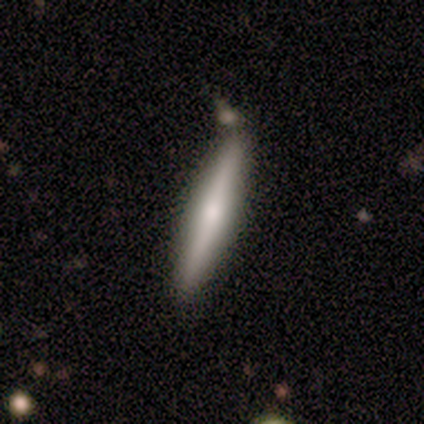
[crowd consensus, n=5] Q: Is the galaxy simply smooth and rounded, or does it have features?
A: featured or disk — 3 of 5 (60%).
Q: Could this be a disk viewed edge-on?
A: yes — 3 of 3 (100%).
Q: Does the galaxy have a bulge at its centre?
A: rounded — 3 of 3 (100%).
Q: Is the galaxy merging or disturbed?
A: none — 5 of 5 (100%).